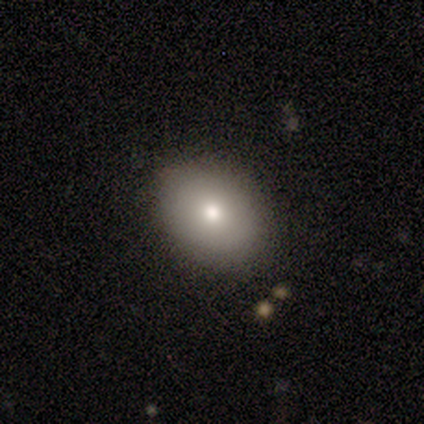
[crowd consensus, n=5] smooth 60%, featured or disk 20%, star or artifact 20%. Down the decision tree: how rounded — in between (100%); merging — none (100%).